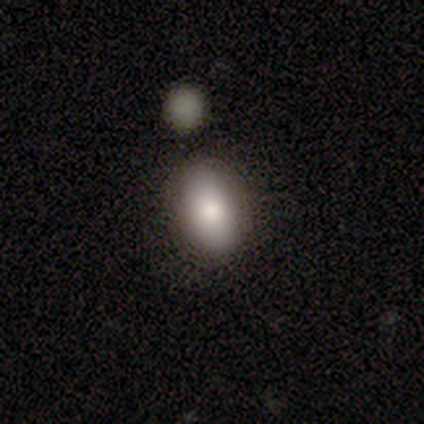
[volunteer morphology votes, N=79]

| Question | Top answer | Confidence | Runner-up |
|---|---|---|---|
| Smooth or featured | smooth | 81% | featured or disk (14%) |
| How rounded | in between | 88% | round (11%) |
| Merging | none | 49% | merger (24%) |